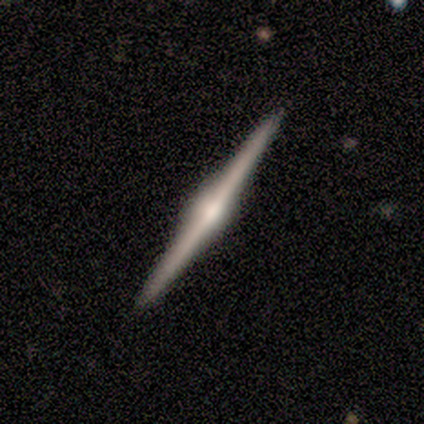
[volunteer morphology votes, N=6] This is clearly a featured or disk galaxy (100%). It is clearly viewed edge-on (100%). Edge-on bulge: clearly rounded (83%). Merging: clearly none (100%).